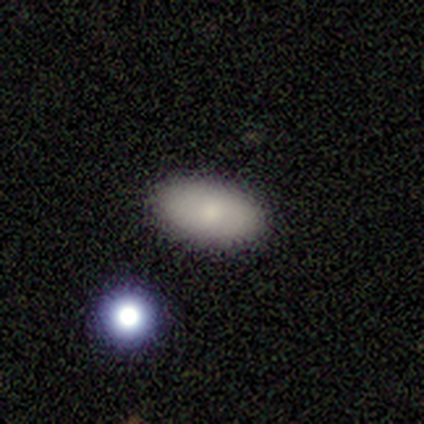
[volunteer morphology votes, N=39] Smooth or featured? 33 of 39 (85%) said smooth. How rounded? 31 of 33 (94%) said in between. Merging? 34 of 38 (89%) said none.